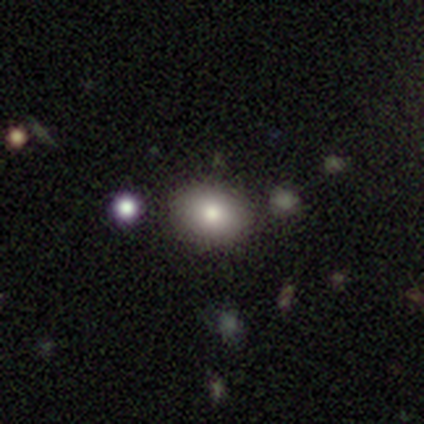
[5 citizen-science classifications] smooth_or_featured: smooth (p=0.80) [alt: featured or disk p=0.20]
how_rounded: round (p=0.75) [alt: in between p=0.25]
merging: none (p=1.00)